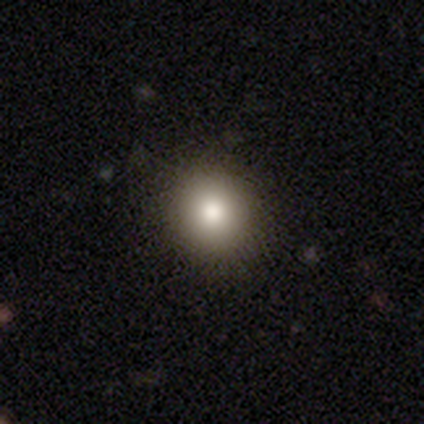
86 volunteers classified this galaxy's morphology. type=smooth (77%); roundness=round (91%); merging=none (93%).